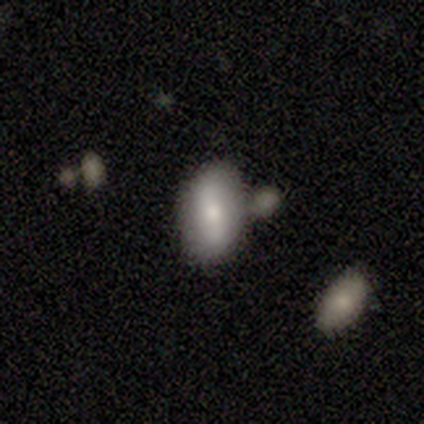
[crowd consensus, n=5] Volunteers were most divided on "bar" (2-way tie): strong: 50%, weak: 50%, no: 0%; "spiral arms" (2-way tie): yes: 50%, no: 50%; "bulge size" (2-way tie): large: 50%, moderate: 50%, dominant: 0%, small: 0%, none: 0%. More confident: spiral winding — loose (100%); spiral arm count — 2 (100%); edge-on disk — no (67%); smooth or featured — featured or disk (60%); merging — none (60%).